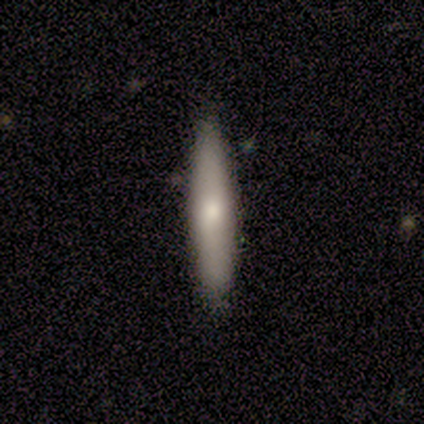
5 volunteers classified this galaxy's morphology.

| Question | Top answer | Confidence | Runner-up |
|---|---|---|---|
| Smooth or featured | smooth | 100% | — |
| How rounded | cigar-shaped | 100% | — |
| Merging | none | 100% | — |